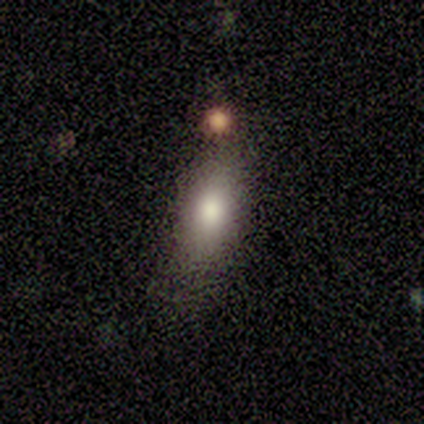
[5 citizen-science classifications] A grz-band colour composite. It shows a smooth galaxy with no disk features (60%) that is in between round and cigar-shaped (100%). Merging: major disturbance (67%).